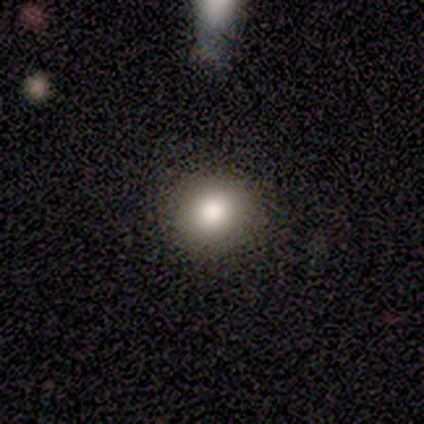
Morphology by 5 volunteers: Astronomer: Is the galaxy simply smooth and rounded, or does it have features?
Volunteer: smooth — 100%.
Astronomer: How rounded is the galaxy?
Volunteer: round — 80%.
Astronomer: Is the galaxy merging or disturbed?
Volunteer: none — 100%.